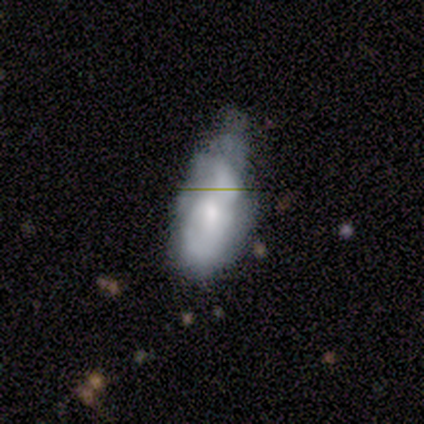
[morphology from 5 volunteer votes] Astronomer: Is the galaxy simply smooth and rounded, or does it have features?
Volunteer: smooth — 60%.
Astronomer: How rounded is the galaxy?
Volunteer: in between — 100%.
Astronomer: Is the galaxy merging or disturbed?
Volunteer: minor disturbance — 50%.